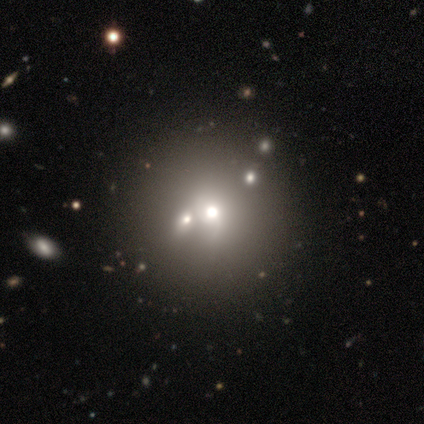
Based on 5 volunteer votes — Overall: featured or disk (100%). Edge-on disk: no (100%). Bar: no (80%). Spiral arms: no (100%). Bulge size: moderate (100%). Merging: none (60%; minor disturbance 20%).